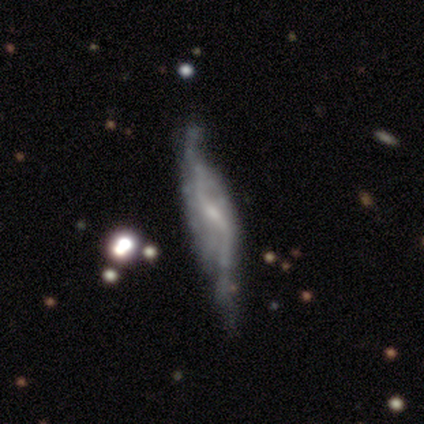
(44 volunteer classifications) This is likely a featured or disk galaxy (77%). It is likely not viewed edge-on (71%). Bar: possibly strong (50%). Spiral arm pattern: likely yes (71%). Spiral arm count: clearly 2 (88%). Spiral winding: clearly loose (88%). Central bulge: possibly small (50%). Merging: marginally minor disturbance (34%).